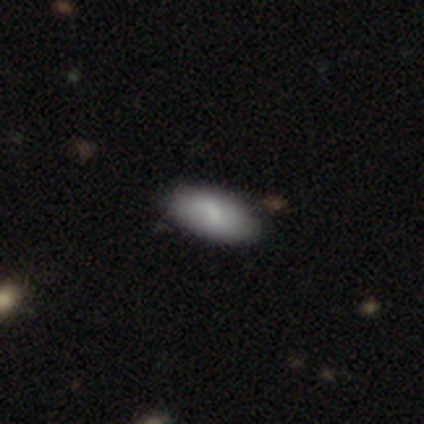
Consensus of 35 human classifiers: smooth-or-featured: smooth: 86% | featured or disk: 14% | star or artifact: 0%
  how-rounded: in between: 100% | round: 0% | cigar-shaped: 0%
  merging: none: 69% | minor disturbance: 29% | major disturbance: 3% | merger: 0%